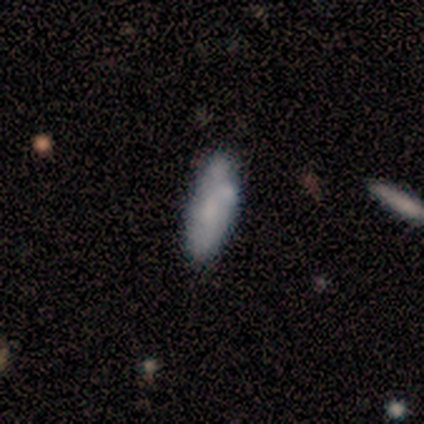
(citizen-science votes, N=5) This appears to be a smooth galaxy with no disk features (60%) that is cigar-shaped (67%). Merging: none (67%).